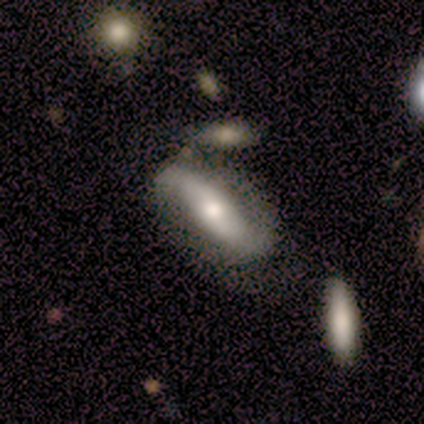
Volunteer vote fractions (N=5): This is likely a smooth galaxy (60%). How rounded: clearly in between (100%). Merging: marginally none (40%, tied with merger).